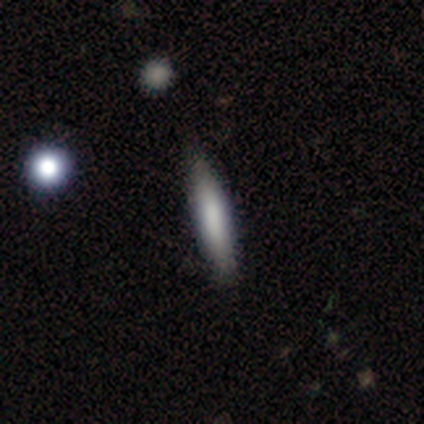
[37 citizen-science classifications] smooth-or-featured: smooth: 62% | featured or disk: 35% | star or artifact: 3%
  how-rounded: cigar-shaped: 96% | in between: 4% | round: 0%
  merging: none: 83% | minor disturbance: 14% | major disturbance: 3% | merger: 0%